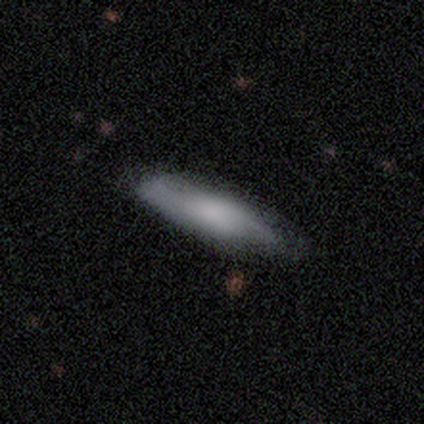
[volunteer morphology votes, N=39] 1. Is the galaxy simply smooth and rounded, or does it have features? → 64% smooth, 33% featured or disk, 3% star or artifact.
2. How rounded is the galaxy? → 60% cigar-shaped, 40% in between, 0% round.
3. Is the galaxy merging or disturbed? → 34% none, 11% minor disturbance, 8% major disturbance, 0% merger.